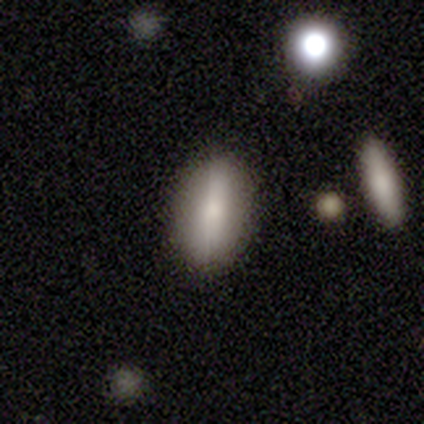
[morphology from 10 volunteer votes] Smooth or featured: smooth — 50% (featured or disk — 40%)
How rounded: in between — 80% (cigar-shaped — 20%)
Merging: none — 89% (major disturbance — 11%)